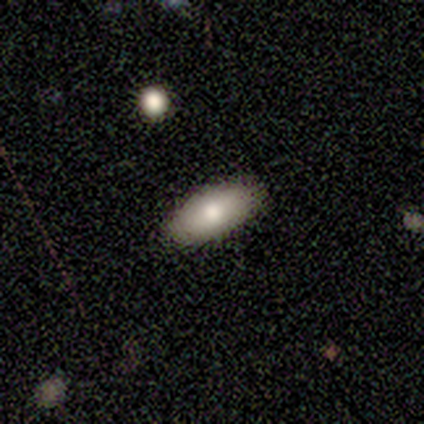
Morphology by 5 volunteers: Smooth or featured?
  - smooth: 80% *
  - featured or disk: 20%
  - star or artifact: 0%
How rounded?
  - in between: 100% *
  - round: 0%
  - cigar-shaped: 0%
Merging?
  - none: 100% *
  - minor disturbance: 0%
  - major disturbance: 0%
  - merger: 0%